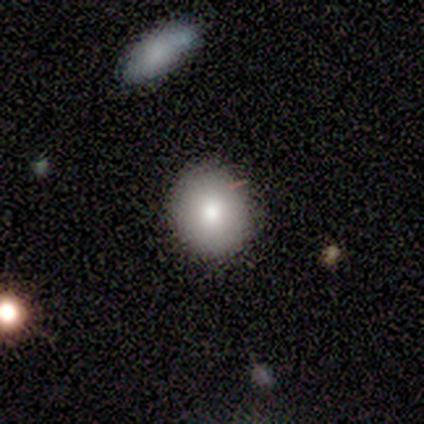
smooth-or-featured: smooth: 83% | featured or disk: 14% | star or artifact: 3%
  how-rounded: round: 72% | in between: 28% | cigar-shaped: 0%
  merging: none: 91% | minor disturbance: 9% | major disturbance: 0% | merger: 0%